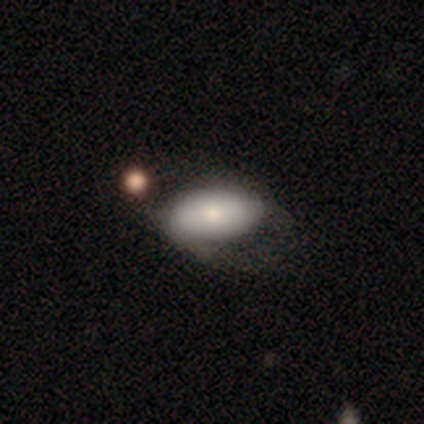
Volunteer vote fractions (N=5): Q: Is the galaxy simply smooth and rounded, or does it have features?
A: featured or disk — 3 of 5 (60%).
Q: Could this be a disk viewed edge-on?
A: no — 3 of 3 (100%).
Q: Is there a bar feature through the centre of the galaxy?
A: no — 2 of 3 (67%).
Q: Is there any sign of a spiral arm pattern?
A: yes — 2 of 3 (67%).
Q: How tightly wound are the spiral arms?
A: tight — 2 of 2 (100%).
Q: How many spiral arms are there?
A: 2 — 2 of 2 (100%).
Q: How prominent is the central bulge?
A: dominant — 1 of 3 (33%, tied with large and moderate).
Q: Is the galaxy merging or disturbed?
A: none — 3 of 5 (60%).